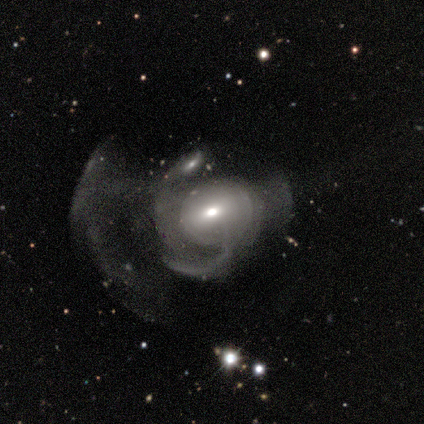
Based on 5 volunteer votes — A featured or disk galaxy (80%) with no bar (50%), 1 (50%, tied with 3) tight (50%, tied with loose) spiral arms (50%, tied with no) and a moderate central bulge (75%).

Vote fractions:
- Smooth or featured? featured or disk: 80% / smooth: 20% / star or artifact: 0%
- Edge-on disk? no: 100% / yes: 0%
- Bar? no: 50% / strong: 25% / weak: 25%
- Spiral arms? yes: 50% (tied) / no: 50% (tied)
- Spiral winding? tight: 50% (tied) / loose: 50% (tied) / medium: 0%
- Spiral arm count? 1: 50% (tied) / 3: 50% (tied) / 2: 0% / 4: 0% / more than 4: 0% / can't tell: 0%
- Bulge size? moderate: 75% / none: 25% / dominant: 0% / large: 0% / small: 0%
- Merging? major disturbance: 60% / none: 20% / minor disturbance: 20% / merger: 0%